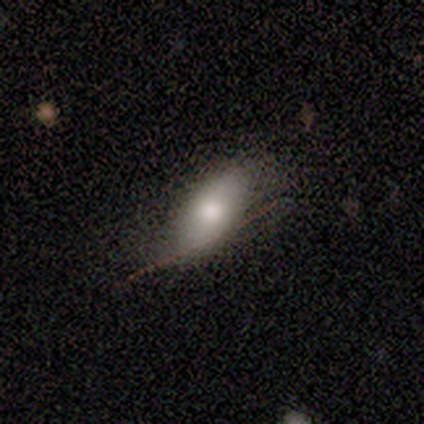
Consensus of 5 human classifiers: Q: Smooth or featured?
A: smooth (80%); runner-up: star or artifact (20%)
Q: How rounded?
A: in between (75%); runner-up: round (25%)
Q: Merging?
A: none (100%)